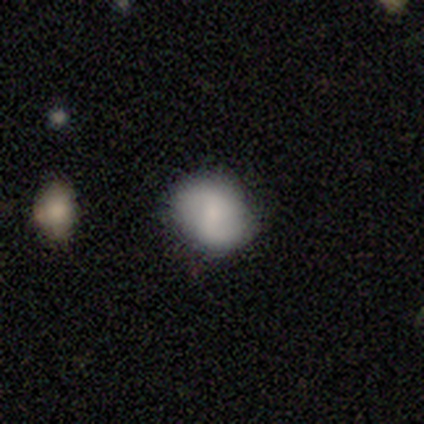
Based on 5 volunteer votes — A smooth galaxy with no disk features (40%, tied with featured or disk) that is round (100%).

Vote fractions:
- Smooth or featured? smooth: 40% (tied) / featured or disk: 40% (tied) / star or artifact: 20%
- How rounded? round: 100% / in between: 0% / cigar-shaped: 0%
- Merging? none: 100% / minor disturbance: 0% / major disturbance: 0% / merger: 0%